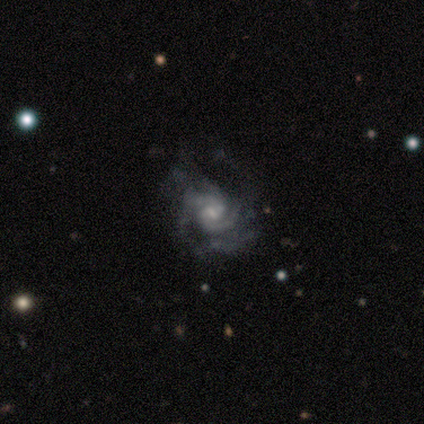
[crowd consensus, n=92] Q: Smooth or featured?
A: featured or disk (90%); runner-up: star or artifact (7%)
Q: Edge-on disk?
A: no (99%); runner-up: yes (1%)
Q: Bar?
A: weak (57%); runner-up: no (33%)
Q: Spiral arms?
A: yes (95%); runner-up: no (5%)
Q: Spiral winding?
A: tight (45%); runner-up: medium (42%)
Q: Spiral arm count?
A: 2 (47%); runner-up: can't tell (19%)
Q: Bulge size?
A: small (59%); runner-up: moderate (28%)
Q: Merging?
A: none (70%); runner-up: minor disturbance (15%)